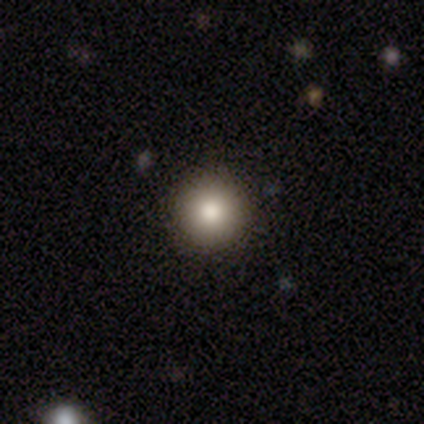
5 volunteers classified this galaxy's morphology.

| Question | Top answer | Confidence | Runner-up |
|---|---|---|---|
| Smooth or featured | smooth | 100% | — |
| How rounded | round | 100% | — |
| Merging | none | 100% | — |